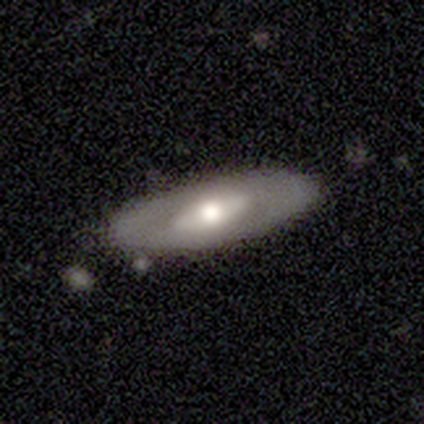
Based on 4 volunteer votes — Smooth or featured?
  - smooth: 50% * (tied)
  - featured or disk: 50% * (tied)
  - star or artifact: 0%
How rounded?
  - in between: 50% * (tied)
  - cigar-shaped: 50% * (tied)
  - round: 0%
Merging?
  - none: 100% *
  - minor disturbance: 0%
  - major disturbance: 0%
  - merger: 0%